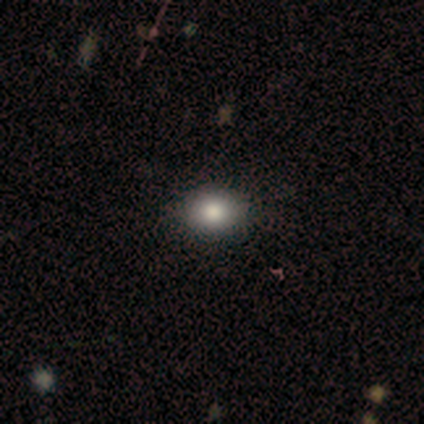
Smooth or featured: smooth — 80% (featured or disk — 20%)
How rounded: in between — 100%
Merging: none — 80% (minor disturbance — 20%)